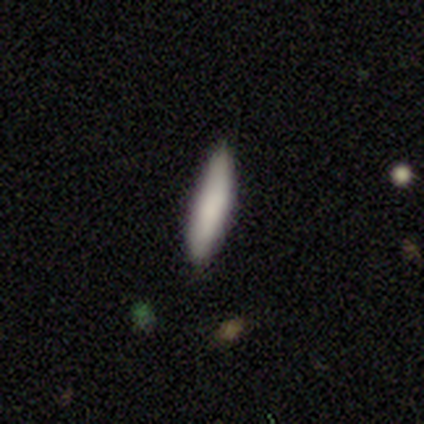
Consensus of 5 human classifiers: This appears to be a smooth galaxy with no disk features (100%) that is cigar-shaped (100%). Merging: none (100%).